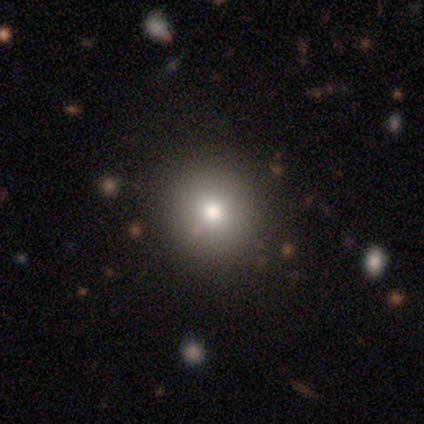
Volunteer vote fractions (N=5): A smooth galaxy with no disk features (60%) that is round (100%).

Vote fractions:
- Smooth or featured? smooth: 60% / featured or disk: 20% / star or artifact: 20%
- How rounded? round: 100% / in between: 0% / cigar-shaped: 0%
- Merging? none: 100% / minor disturbance: 0% / major disturbance: 0% / merger: 0%